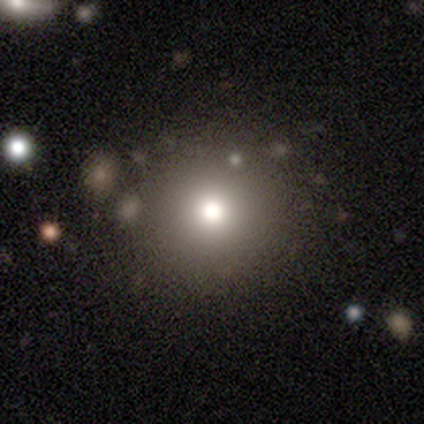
Smooth or featured: smooth — 89% (featured or disk — 5%)
How rounded: round — 97% (in between — 3%)
Merging: none — 69%